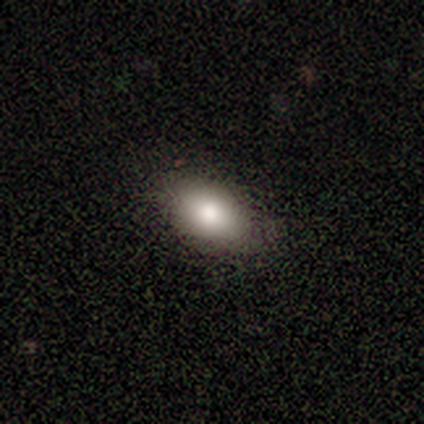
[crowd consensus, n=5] Overall: smooth (60%; featured or disk 20%). How rounded: in between (100%). Merging: none (100%).